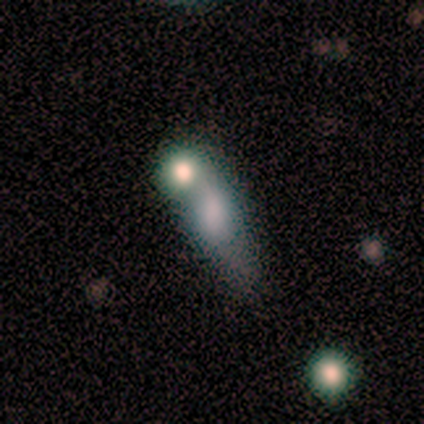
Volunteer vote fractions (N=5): This appears to be a smooth galaxy with no disk features (80%) that is in between round and cigar-shaped (50%). Merging: merger (80%).